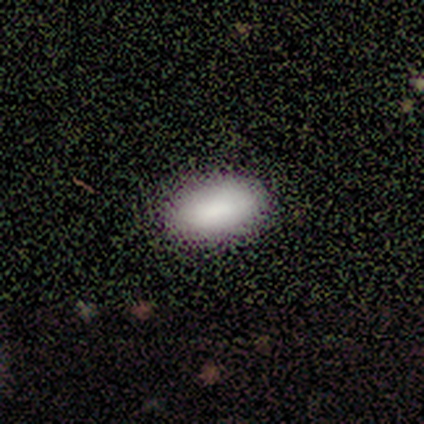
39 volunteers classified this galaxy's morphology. smooth-or-featured: smooth: 95% | featured or disk: 5% | star or artifact: 0%
  how-rounded: in between: 95% | round: 5% | cigar-shaped: 0%
  merging: none: 74% | major disturbance: 3% | merger: 3% | minor disturbance: 0%